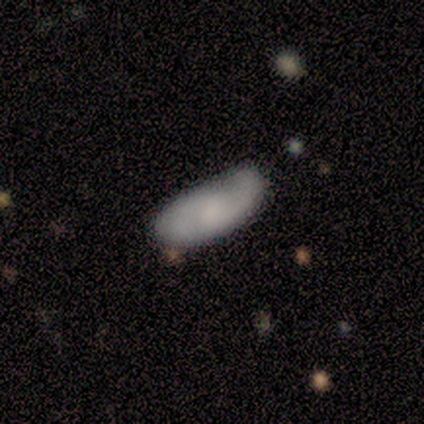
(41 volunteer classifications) featured or disk 51%, smooth 49%, star or artifact 0%. Down the decision tree: edge-on disk — no (95%); bar — no (65%); spiral arms — yes (75%); spiral arm count — 2 (87%); spiral winding — loose (53%); bulge size — small (45%); merging — none (59%).